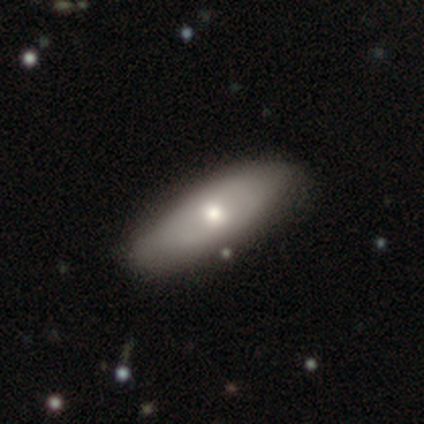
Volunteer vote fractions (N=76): Volunteers were most divided on "smooth or featured": smooth: 62%, featured or disk: 37%, star or artifact: 1%. More confident: how rounded — in between (81%); merging — none (55%).